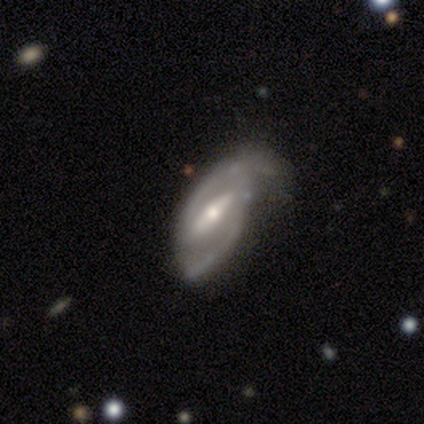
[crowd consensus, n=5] Q: Smooth or featured?
A: featured or disk (100%)
Q: Edge-on disk?
A: no (100%)
Q: Bar?
A: strong (80%); runner-up: weak (20%)
Q: Spiral arms?
A: yes (100%)
Q: Spiral winding?
A: tight (40%); tied with: loose (40%)
Q: Spiral arm count?
A: 2 (100%)
Q: Bulge size?
A: moderate (40%); tied with: small (40%)
Q: Merging?
A: none (60%); runner-up: minor disturbance (40%)